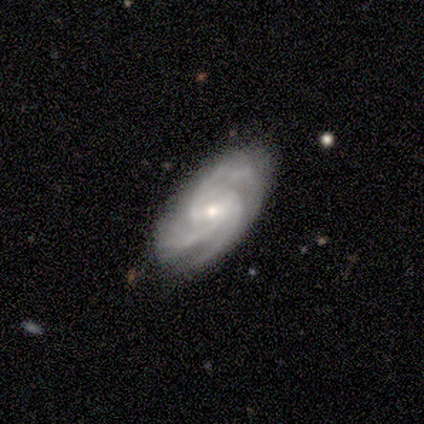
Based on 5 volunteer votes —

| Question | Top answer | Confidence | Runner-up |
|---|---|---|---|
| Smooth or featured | featured or disk | 100% | — |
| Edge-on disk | no | 100% | — |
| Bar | weak | 80% | strong (20%) |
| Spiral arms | yes | 100% | — |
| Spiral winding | medium | 60% | tight (20%) |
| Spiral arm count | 3 | 80% | 4 (20%) |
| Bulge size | small | 80% | moderate (20%) |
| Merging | none | 100% | — |